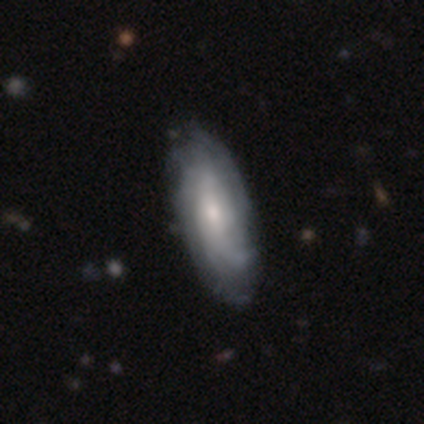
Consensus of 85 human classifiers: A featured or disk galaxy (69%) with no bar (64%), tight (55%) spiral arms (93%) and a small central bulge (55%). Merging: none (76%).